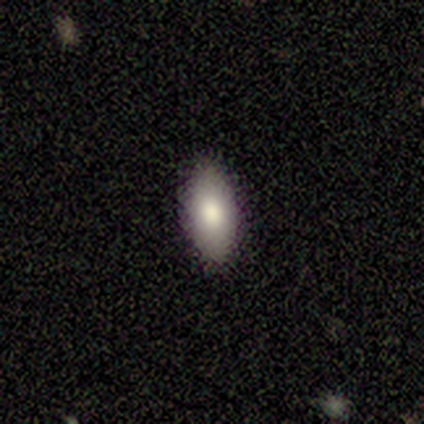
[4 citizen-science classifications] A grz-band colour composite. It shows a smooth galaxy with no disk features (75%) that is in between round and cigar-shaped (100%). Merging: none (75%).